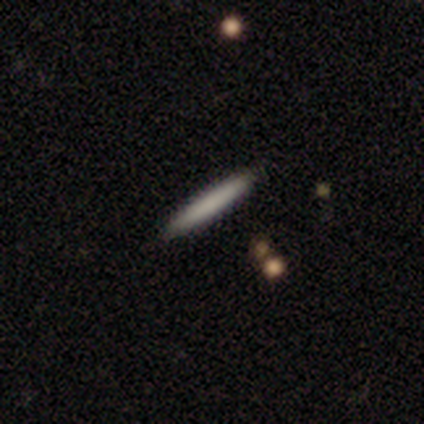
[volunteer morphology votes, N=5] This appears to be a smooth galaxy with no disk features (100%) that is cigar-shaped (100%). Merging: none (100%).